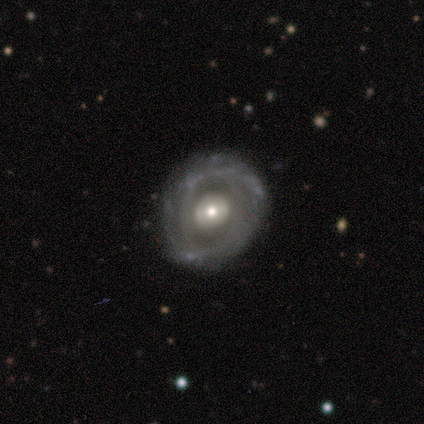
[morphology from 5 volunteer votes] smooth_or_featured: featured or disk (p=1.00)
disk_edge_on: no (p=1.00)
bar: no (p=0.80) [alt: weak p=0.20]
has_spiral_arms: no (p=0.80) [alt: yes p=0.20]
bulge_size: moderate (p=0.80) [alt: large p=0.20]
merging: minor disturbance (p=0.60) [alt: none p=0.20]